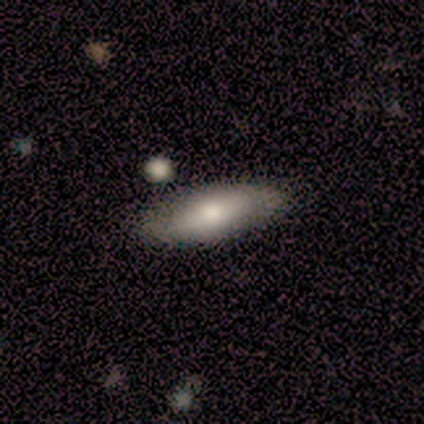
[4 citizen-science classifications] smooth_or_featured: featured or disk (p=0.75) [alt: smooth p=0.25]
disk_edge_on: no (p=0.67) [alt: yes p=0.33]
bar: weak (p=0.50) [tied with: no p=0.50]
has_spiral_arms: yes (p=1.00)
spiral_winding: medium (p=0.50) [tied with: loose p=0.50]
spiral_arm_count: 2 (p=1.00)
bulge_size: large (p=0.50) [tied with: moderate p=0.50]
merging: none (p=0.75) [alt: minor disturbance p=0.25]